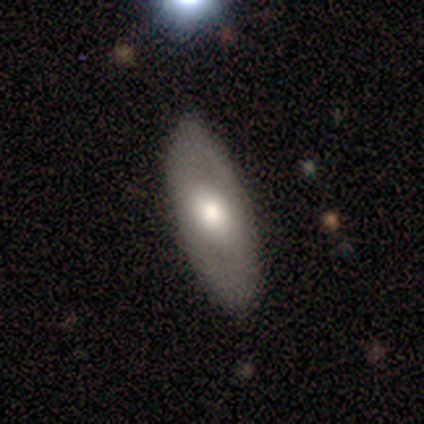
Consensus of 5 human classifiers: Smooth or featured?
  - featured or disk: 60% *
  - smooth: 40%
  - star or artifact: 0%
Edge-on disk?
  - no: 67% *
  - yes: 33%
Bar?
  - weak: 100% *
  - strong: 0%
  - no: 0%
Spiral arms?
  - yes: 100% *
  - no: 0%
Spiral winding?
  - medium: 50% * (tied)
  - loose: 50% * (tied)
  - tight: 0%
Spiral arm count?
  - 2: 100% *
  - 1: 0%
  - 3: 0%
  - 4: 0%
  - more than 4: 0%
  - can't tell: 0%
Bulge size?
  - large: 50% * (tied)
  - moderate: 50% * (tied)
  - dominant: 0%
  - small: 0%
  - none: 0%
Merging?
  - none: 80% *
  - minor disturbance: 20%
  - major disturbance: 0%
  - merger: 0%